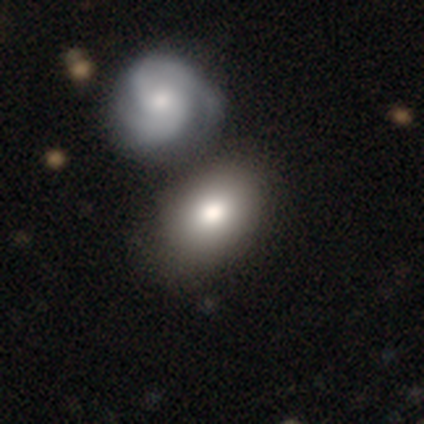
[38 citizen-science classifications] smooth_or_featured: smooth (p=0.76) [alt: featured or disk p=0.18]
how_rounded: in between (p=0.90) [alt: round p=0.10]
merging: none (p=0.44) [alt: merger p=0.19]